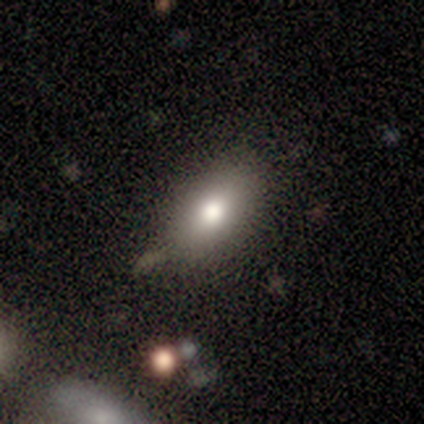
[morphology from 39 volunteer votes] This is clearly a smooth galaxy (87%). How rounded: clearly in between (97%). Merging: likely none (79%).